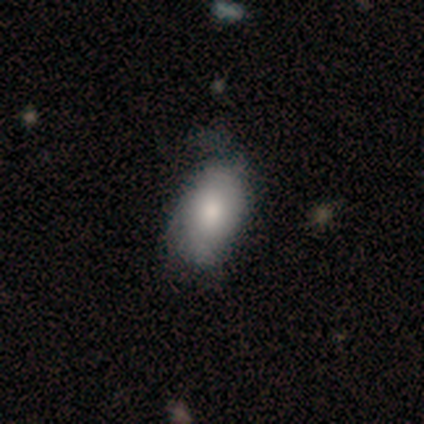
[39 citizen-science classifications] Smooth or featured? 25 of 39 (64%) said smooth. How rounded? 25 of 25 (100%) said in between. Merging? 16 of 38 (42%) said minor disturbance.